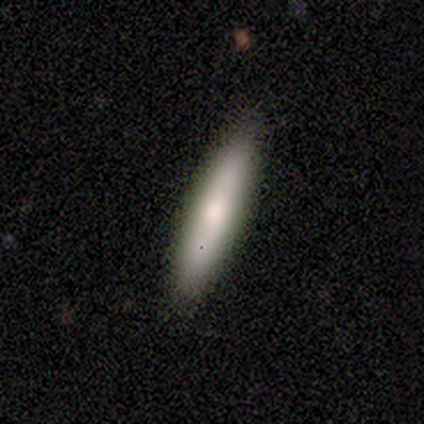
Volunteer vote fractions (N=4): A smooth galaxy with no disk features (75%) that is cigar-shaped (100%). Merging: none (100%).